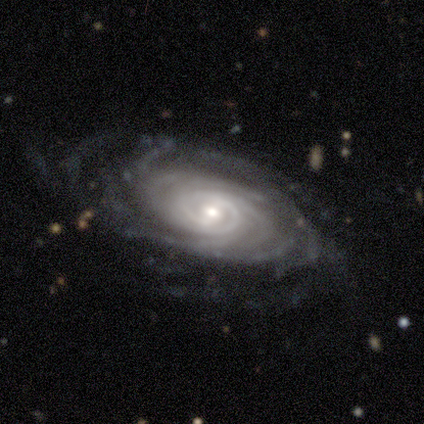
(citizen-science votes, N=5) Volunteers were most divided on "spiral winding": tight: 60%, medium: 40%, loose: 0%. More confident: smooth or featured — featured or disk (100%); edge-on disk — no (100%); spiral arms — yes (100%); merging — none (80%); spiral arm count — more than 4 (60%); bulge size — small (60%); bar — no (60%).